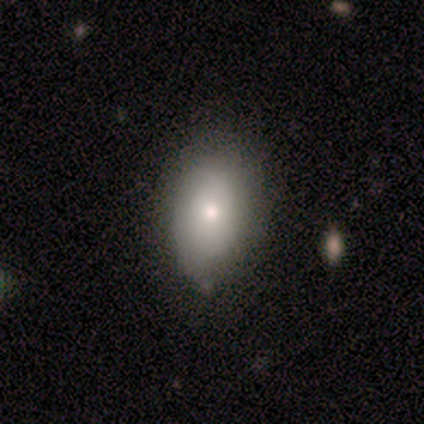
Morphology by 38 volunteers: smooth-or-featured: smooth: 84% | featured or disk: 11% | star or artifact: 5%
  how-rounded: in between: 88% | round: 9% | cigar-shaped: 3%
  merging: none: 64% | minor disturbance: 36% | major disturbance: 0% | merger: 0%